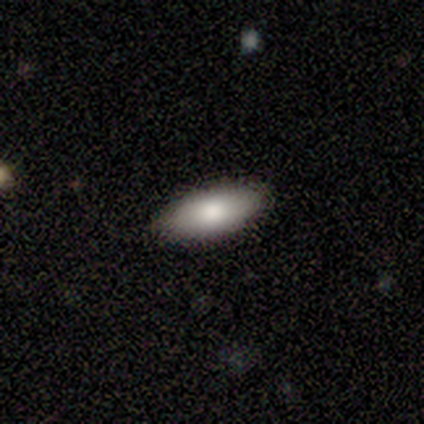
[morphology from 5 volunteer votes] Q: Smooth or featured?
A: smooth (80%); runner-up: star or artifact (20%)
Q: How rounded?
A: in between (100%)
Q: Merging?
A: none (100%)